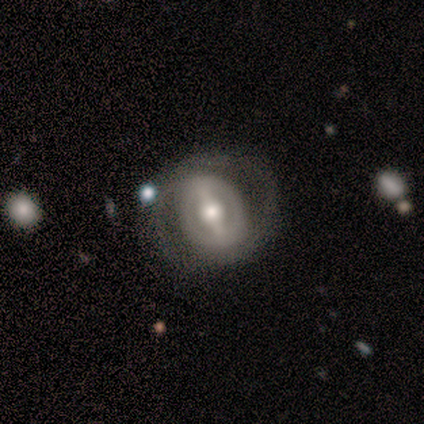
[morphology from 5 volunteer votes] type=featured or disk (100%); edge-on=no (100%); bar=strong (40%, tied with no); spiral arms=yes (80%); winding=tight (50%); arm count=2 (75%); bulge=small (40%); merging=none (80%).